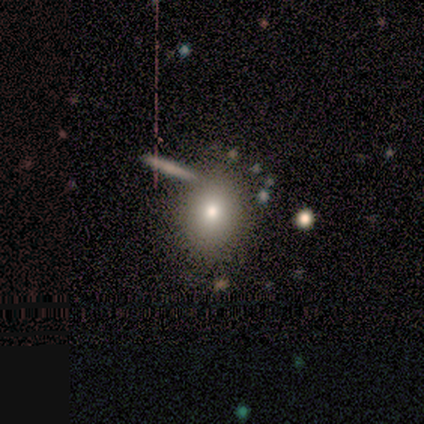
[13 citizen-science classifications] Smooth or featured? smooth (62%)
How rounded? round (62%)
Merging? none (91%)